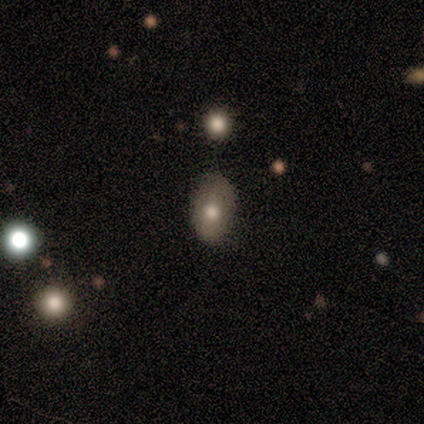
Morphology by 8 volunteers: This appears to be a smooth galaxy with no disk features (75%) that is in between round and cigar-shaped (67%). Merging: none (75%).